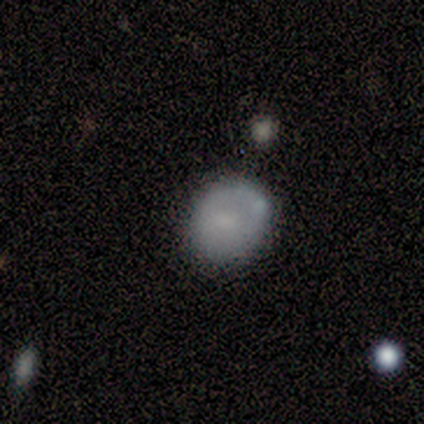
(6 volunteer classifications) Smooth or featured?
  - smooth: 67% *
  - featured or disk: 33%
  - star or artifact: 0%
How rounded?
  - round: 75% *
  - in between: 25%
  - cigar-shaped: 0%
Merging?
  - none: 50% *
  - minor disturbance: 17%
  - major disturbance: 17%
  - merger: 17%